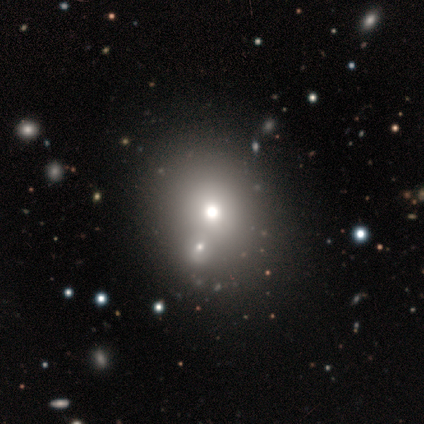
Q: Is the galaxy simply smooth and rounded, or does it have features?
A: smooth — 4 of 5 (80%).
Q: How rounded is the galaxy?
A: round — 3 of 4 (75%).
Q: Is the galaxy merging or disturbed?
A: merger — 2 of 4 (50%).